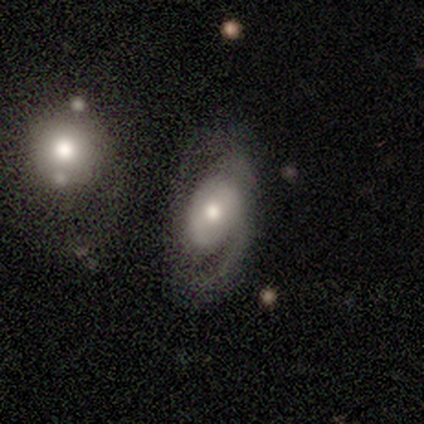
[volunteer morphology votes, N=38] smooth_or_featured: featured or disk (p=0.87) [alt: smooth p=0.11]
disk_edge_on: no (p=0.91) [alt: yes p=0.09]
bar: no (p=0.53) [alt: weak p=0.40]
has_spiral_arms: yes (p=0.83) [alt: no p=0.17]
spiral_winding: medium (p=0.48) [alt: loose p=0.28]
spiral_arm_count: 2 (p=0.36) [alt: 1 p=0.32]
bulge_size: moderate (p=0.63) [alt: small p=0.30]
merging: none (p=0.54) [alt: minor disturbance p=0.30]